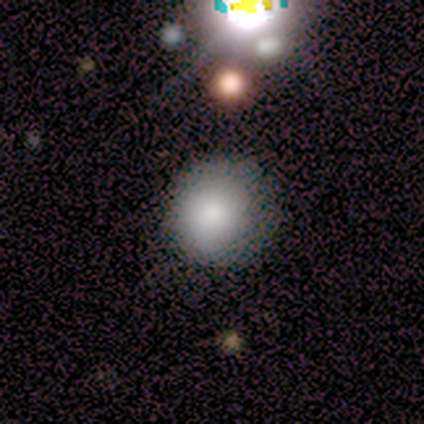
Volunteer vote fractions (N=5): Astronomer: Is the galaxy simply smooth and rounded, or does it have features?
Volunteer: smooth — 60%.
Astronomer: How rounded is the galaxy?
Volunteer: round — 100%.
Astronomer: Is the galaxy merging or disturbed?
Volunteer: none — 100%.